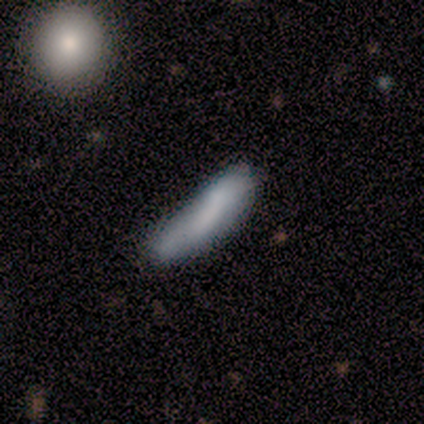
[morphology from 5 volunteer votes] Overall: smooth (60%; featured or disk 40%). How rounded: cigar-shaped (67%; in between 33%). Merging: none (80%).